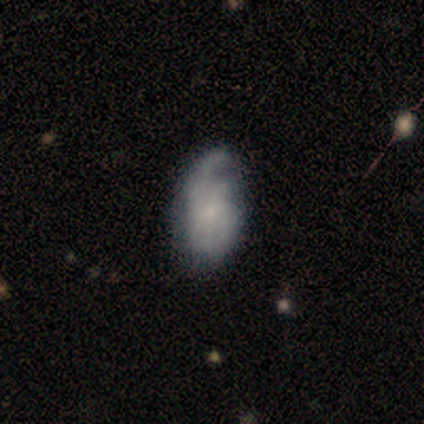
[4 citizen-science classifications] A smooth galaxy with no disk features (50%, tied with featured or disk) that is in between round and cigar-shaped (100%).

Vote fractions:
- Smooth or featured? smooth: 50% (tied) / featured or disk: 50% (tied) / star or artifact: 0%
- How rounded? in between: 100% / round: 0% / cigar-shaped: 0%
- Merging? none: 50% (tied) / minor disturbance: 50% (tied) / major disturbance: 0% / merger: 0%